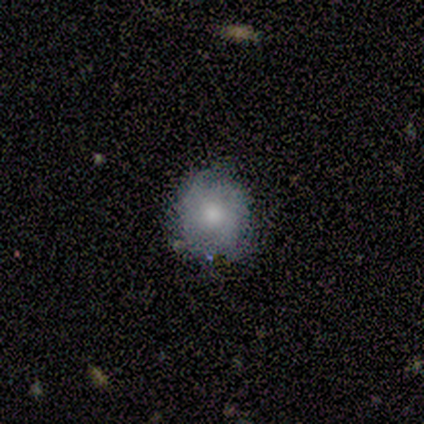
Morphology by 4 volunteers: Overall: smooth (50%, tied with featured or disk). How rounded: round (100%). Merging: none (100%).